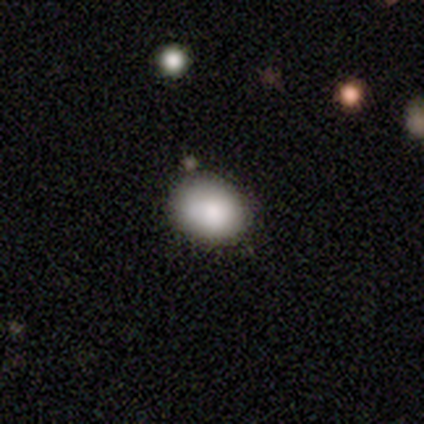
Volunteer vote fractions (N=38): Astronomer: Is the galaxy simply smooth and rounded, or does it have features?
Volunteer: smooth — 76%.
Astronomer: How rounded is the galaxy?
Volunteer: in between — 62% (runner-up: round, 38%).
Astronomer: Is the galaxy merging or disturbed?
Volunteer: none — 66%.